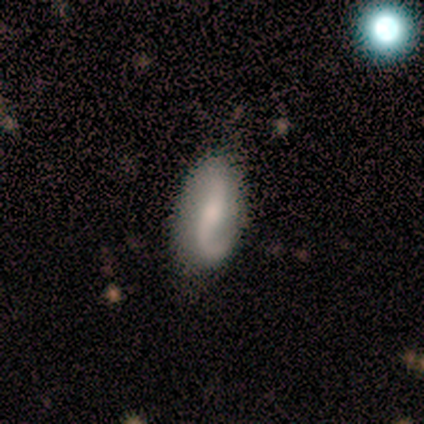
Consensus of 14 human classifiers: A featured or disk galaxy (71%) with no bar (70%), 2 (80%) loose (70%) spiral arms (100%) and a moderate central bulge (50%).

Vote fractions:
- Smooth or featured? featured or disk: 71% / smooth: 21% / star or artifact: 7%
- Edge-on disk? no: 100% / yes: 0%
- Bar? no: 70% / strong: 20% / weak: 10%
- Spiral arms? yes: 100% / no: 0%
- Spiral winding? loose: 70% / medium: 20% / tight: 10%
- Spiral arm count? 2: 80% / 1: 20% / 3: 0% / 4: 0% / more than 4: 0% / can't tell: 0%
- Bulge size? moderate: 50% / small: 30% / none: 20% / dominant: 0% / large: 0%
- Merging? none: 69% / minor disturbance: 31% / major disturbance: 0% / merger: 0%